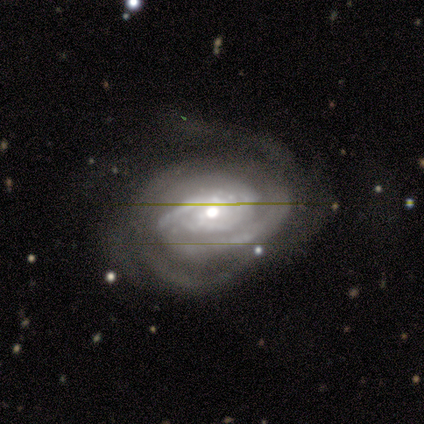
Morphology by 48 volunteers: A featured or disk galaxy (96%) with no bar (74%), 2 (37%) tight (65%) spiral arms (100%) and a moderate central bulge (56%). Merging: none (39%).